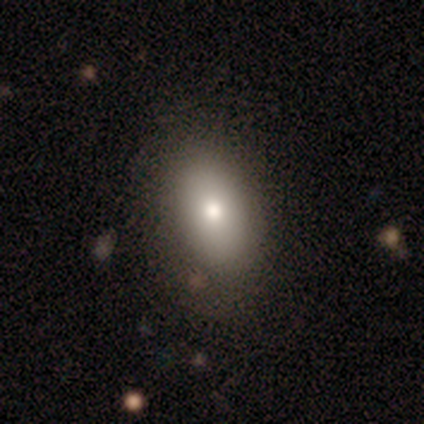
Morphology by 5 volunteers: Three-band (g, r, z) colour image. It shows a smooth galaxy with no disk features (40%, tied with featured or disk) that is in between round and cigar-shaped (100%). Merging: none (100%).